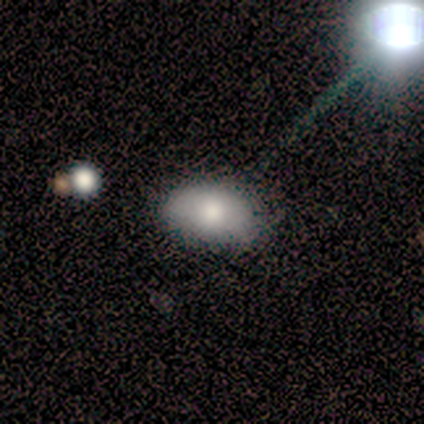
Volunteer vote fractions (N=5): Smooth or featured? 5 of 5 (100%) said smooth. How rounded? 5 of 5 (100%) said in between. Merging? 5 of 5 (100%) said none.